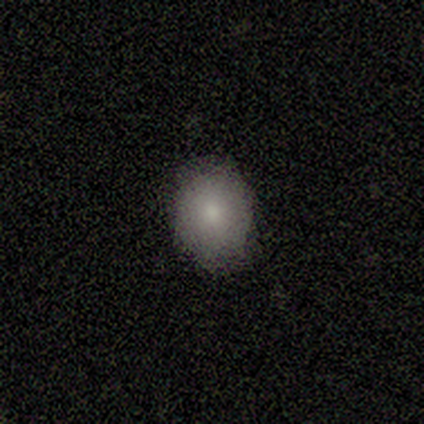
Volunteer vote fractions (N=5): Morphology: type=smooth (80%); roundness=in between (100%); merging=none (100%).